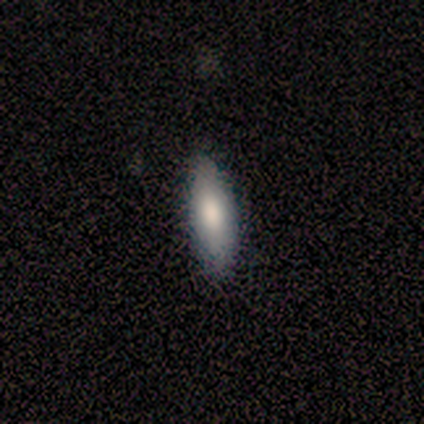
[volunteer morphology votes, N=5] A smooth galaxy with no disk features (60%) that is in between round and cigar-shaped (67%).

Vote fractions:
- Smooth or featured? smooth: 60% / featured or disk: 40% / star or artifact: 0%
- How rounded? in between: 67% / cigar-shaped: 33% / round: 0%
- Merging? none: 100% / minor disturbance: 0% / major disturbance: 0% / merger: 0%